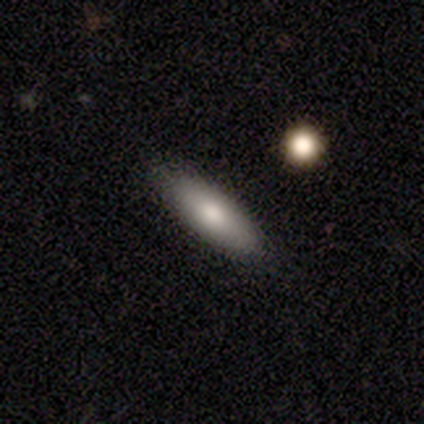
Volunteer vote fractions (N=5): A smooth galaxy with no disk features (100%) that is in between round and cigar-shaped (80%). Merging: none (100%).